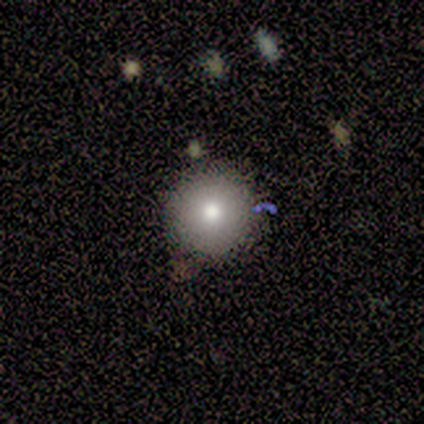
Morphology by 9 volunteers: smooth-or-featured: smooth: 78% | featured or disk: 22% | star or artifact: 0%
  how-rounded: round: 100% | in between: 0% | cigar-shaped: 0%
  merging: none: 78% | minor disturbance: 22% | major disturbance: 0% | merger: 0%